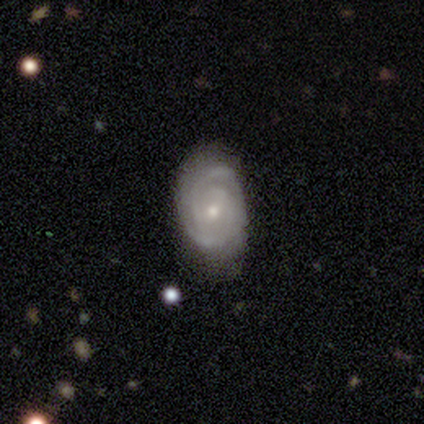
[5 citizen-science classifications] This is clearly a featured or disk galaxy (100%). It is clearly not viewed edge-on (100%). Bar: clearly no (80%). Spiral arm pattern: clearly yes (100%). Spiral arm count: likely 2 (60%). Spiral winding: clearly tight (80%). Central bulge: likely moderate (60%). Merging: likely none (60%).